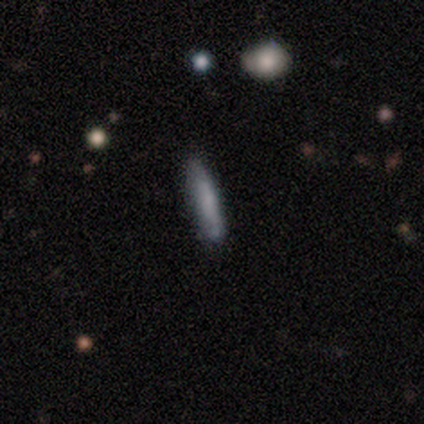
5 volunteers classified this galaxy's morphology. smooth-or-featured: smooth: 100% | featured or disk: 0% | star or artifact: 0%
  how-rounded: cigar-shaped: 100% | round: 0% | in between: 0%
  merging: none: 100% | minor disturbance: 0% | major disturbance: 0% | merger: 0%